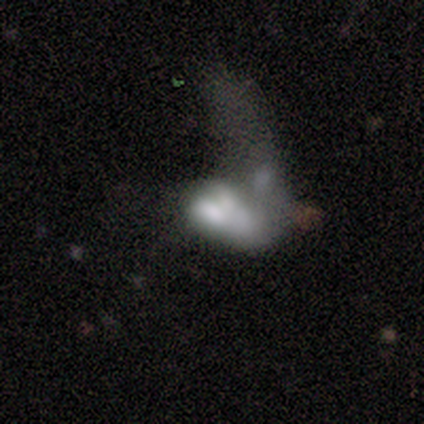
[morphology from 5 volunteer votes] smooth-or-featured: featured or disk: 100% | smooth: 0% | star or artifact: 0%
  disk-edge-on: no: 100% | yes: 0%
    bar: no: 100% | strong: 0% | weak: 0%
    has-spiral-arms: no: 100% | yes: 0%
    bulge-size: none: 60% | moderate: 20% | small: 20% | dominant: 0% | large: 0%
  merging: major disturbance: 100% | none: 0% | minor disturbance: 0% | merger: 0%